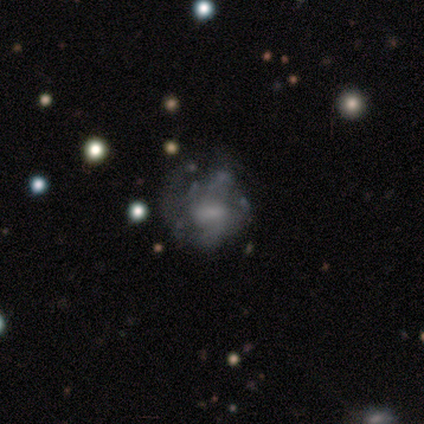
This appears to be a featured or disk galaxy (60%) with a strong bar (33%, tied with weak and no), no spiral arms (67%) and a moderate central bulge (67%). Merging: none (67%).